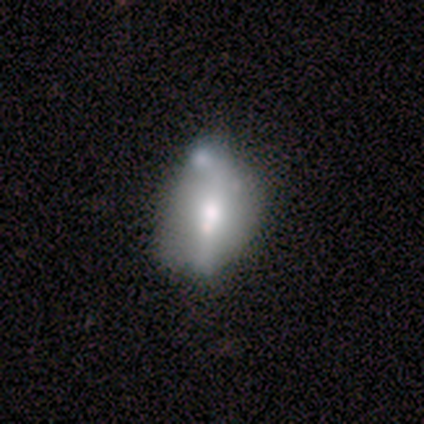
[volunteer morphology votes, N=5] A featured or disk galaxy (80%) with a strong bar (50%, tied with no), no spiral arms (75%) and a small central bulge (50%).

Vote fractions:
- Smooth or featured? featured or disk: 80% / smooth: 20% / star or artifact: 0%
- Edge-on disk? no: 100% / yes: 0%
- Bar? strong: 50% (tied) / no: 50% (tied) / weak: 0%
- Spiral arms? no: 75% / yes: 25%
- Bulge size? small: 50% / dominant: 25% / large: 25% / moderate: 0% / none: 0%
- Merging? none: 40% (tied) / merger: 40% (tied) / minor disturbance: 20% / major disturbance: 0%